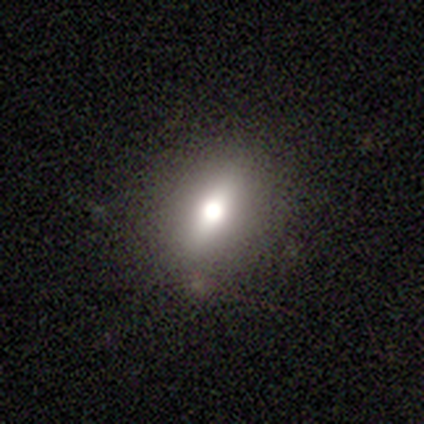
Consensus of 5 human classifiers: Smooth or featured: smooth — 60% (featured or disk — 40%)
How rounded: in between — 100%
Merging: none — 100%